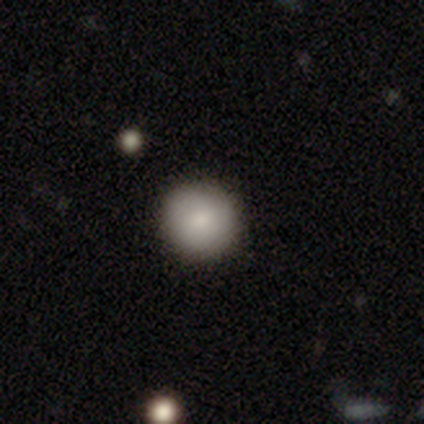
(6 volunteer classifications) Volunteers were most divided on "smooth or featured": smooth: 83%, featured or disk: 17%, star or artifact: 0%. More confident: how rounded — round (100%); merging — none (83%).